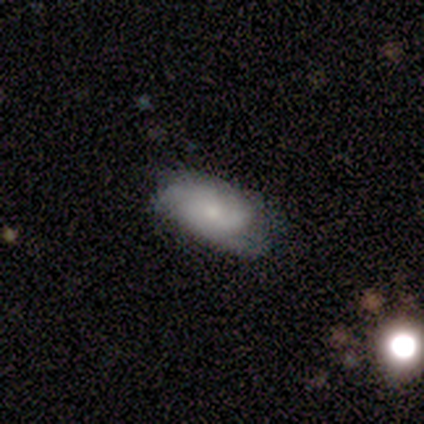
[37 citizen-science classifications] A smooth galaxy with no disk features (54%) that is in between round and cigar-shaped (95%). Merging: none (62%).